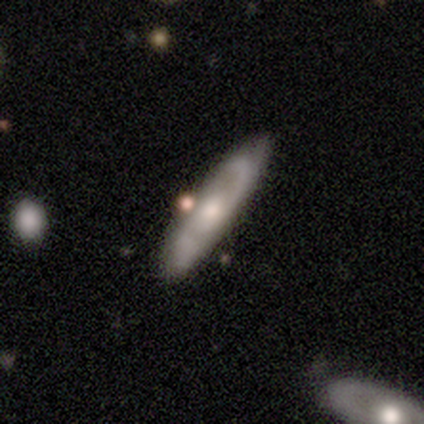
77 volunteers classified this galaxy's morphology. Q: Smooth or featured?
A: featured or disk (65%); runner-up: smooth (34%)
Q: Edge-on disk?
A: no (78%); runner-up: yes (22%)
Q: Bar?
A: no (85%); runner-up: weak (13%)
Q: Spiral arms?
A: yes (82%); runner-up: no (18%)
Q: Spiral winding?
A: medium (62%); runner-up: loose (28%)
Q: Spiral arm count?
A: 2 (97%); runner-up: can't tell (3%)
Q: Bulge size?
A: moderate (59%); runner-up: small (26%)
Q: Merging?
A: none (32%); runner-up: minor disturbance (18%)